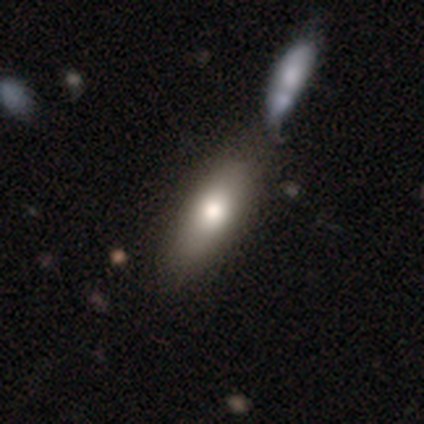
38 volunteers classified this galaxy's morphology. Overall: smooth (74%). How rounded: in between (75%). Merging: none (44%; merger 14%).